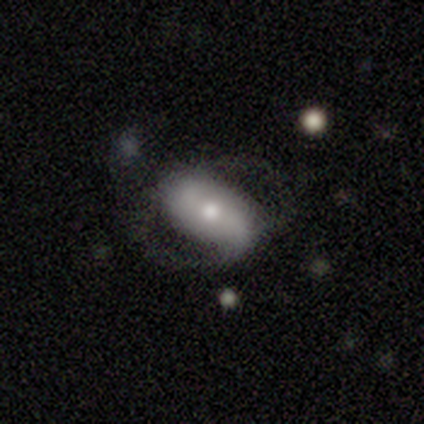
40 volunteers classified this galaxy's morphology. smooth_or_featured: featured or disk (p=0.65) [alt: smooth p=0.30]
disk_edge_on: no (p=1.00)
bar: no (p=0.46) [alt: weak p=0.31]
has_spiral_arms: yes (p=0.65) [alt: no p=0.35]
spiral_winding: medium (p=0.65) [alt: loose p=0.24]
spiral_arm_count: 2 (p=0.76) [alt: can't tell p=0.18]
bulge_size: moderate (p=0.50) [alt: small p=0.38]
merging: none (p=0.50) [alt: minor disturbance p=0.24]